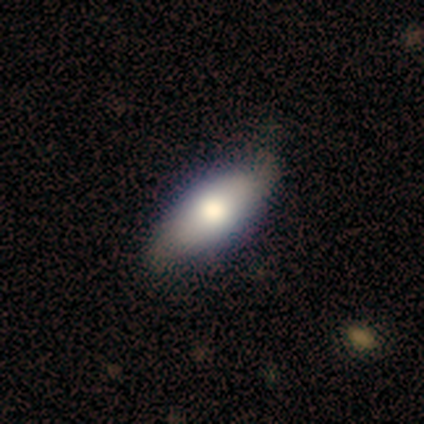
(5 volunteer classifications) This is marginally a smooth galaxy (40%, tied with featured or disk). How rounded: clearly in between (100%). Merging: possibly none (50%, tied with minor disturbance).